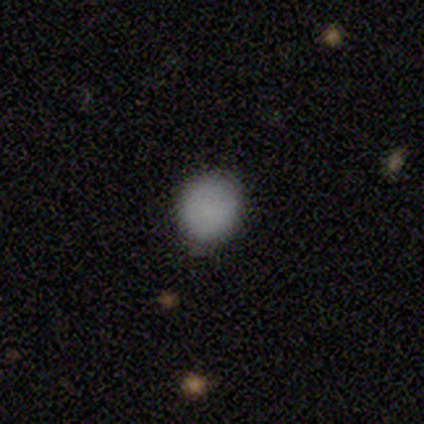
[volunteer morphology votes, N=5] This is clearly a smooth galaxy (100%). How rounded: clearly round (80%). Merging: clearly none (80%).